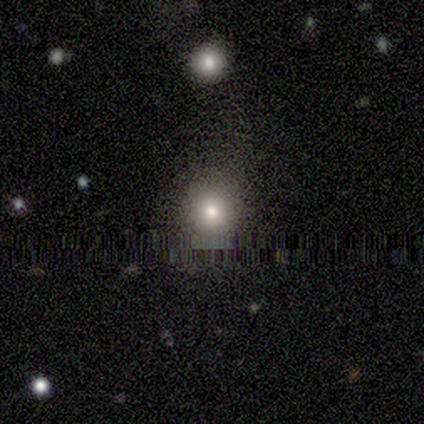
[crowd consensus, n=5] smooth 60%, star or artifact 40%, featured or disk 0%. Down the decision tree: how rounded — round (100%); merging — none (100%).